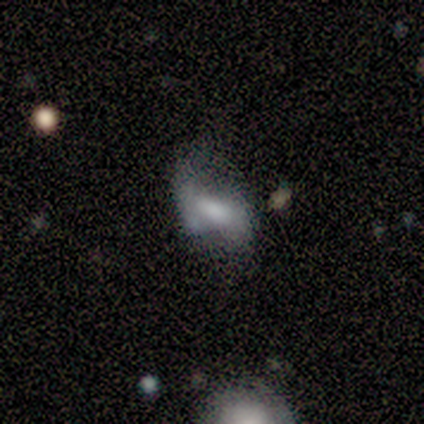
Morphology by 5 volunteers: featured or disk 80%, smooth 20%, star or artifact 0%. Down the decision tree: edge-on disk — no (100%); bar — strong (50%, tied with no); spiral arms — yes (50%, tied with no); spiral arm count — 2 (50%, tied with can't tell); spiral winding — loose (100%); bulge size — small (50%); merging — major disturbance (60%).